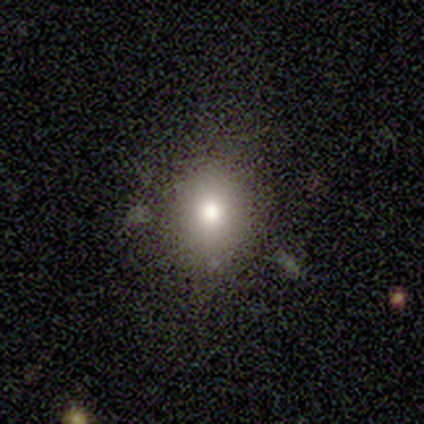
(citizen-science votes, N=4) A smooth galaxy with no disk features (75%) that is in between round and cigar-shaped (67%).

Vote fractions:
- Smooth or featured? smooth: 75% / star or artifact: 25% / featured or disk: 0%
- How rounded? in between: 67% / round: 33% / cigar-shaped: 0%
- Merging? none: 100% / minor disturbance: 0% / major disturbance: 0% / merger: 0%